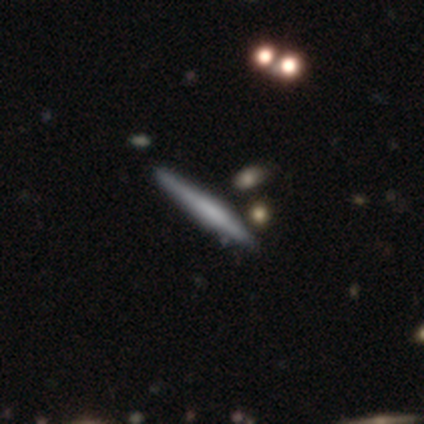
Smooth or featured?
  - featured or disk: 58% *
  - smooth: 42%
  - star or artifact: 0%
Edge-on disk?
  - yes: 95% *
  - no: 5%
Edge-on bulge?
  - none: 35% * (tied)
  - rounded: 35% * (tied)
  - boxy: 30%
Merging?
  - none: 81% *
  - minor disturbance: 17%
  - merger: 3%
  - major disturbance: 0%